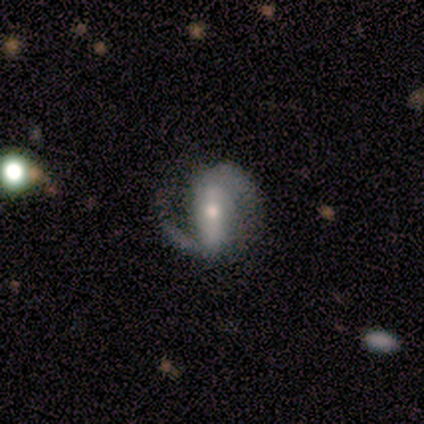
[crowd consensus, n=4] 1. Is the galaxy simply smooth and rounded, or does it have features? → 100% featured or disk, 0% smooth, 0% star or artifact.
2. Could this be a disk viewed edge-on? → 100% no, 0% yes.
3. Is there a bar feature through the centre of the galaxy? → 50% strong, 25% weak, 25% no.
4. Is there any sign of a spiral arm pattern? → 75% yes, 25% no.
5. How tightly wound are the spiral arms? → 67% loose, 33% medium, 0% tight.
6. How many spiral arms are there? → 33% 1 (tied), 33% 2 (tied), 33% 3 (tied), 0% 4, 0% more than 4, 0% can't tell.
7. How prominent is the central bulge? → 50% moderate (tied), 50% small (tied), 0% dominant, 0% large, 0% none.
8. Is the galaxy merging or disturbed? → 75% none, 25% major disturbance, 0% minor disturbance, 0% merger.